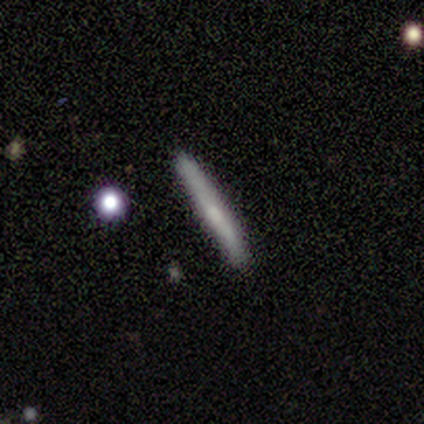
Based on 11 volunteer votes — Morphology: type=smooth (55%); roundness=cigar-shaped (100%); merging=none (90%).